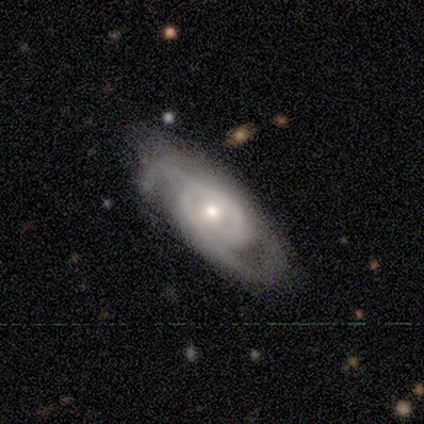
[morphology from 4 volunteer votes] A featured or disk galaxy (75%) with no bar (100%), 2 (100%) tight (67%) spiral arms (100%) and a small central bulge (67%). Merging: none (75%).